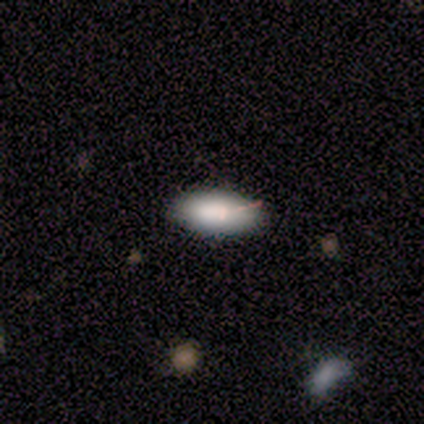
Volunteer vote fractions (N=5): A smooth galaxy with no disk features (100%) that is in between round and cigar-shaped (80%). Merging: none (80%).